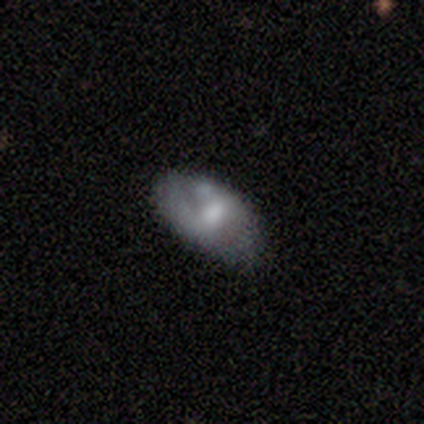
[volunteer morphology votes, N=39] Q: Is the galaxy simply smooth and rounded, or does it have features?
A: featured or disk — 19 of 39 (49%).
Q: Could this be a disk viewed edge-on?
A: no — 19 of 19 (100%).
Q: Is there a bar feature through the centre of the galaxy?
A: no — 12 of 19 (63%).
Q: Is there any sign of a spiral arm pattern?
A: no — 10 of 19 (53%).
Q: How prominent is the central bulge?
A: moderate — 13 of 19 (68%).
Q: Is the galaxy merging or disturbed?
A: none — 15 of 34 (44%, tied with minor disturbance).